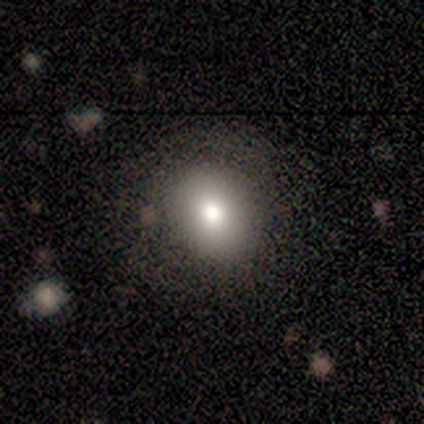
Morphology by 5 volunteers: Overall: smooth (80%). How rounded: in between (75%). Merging: none (60%; minor disturbance 20%).